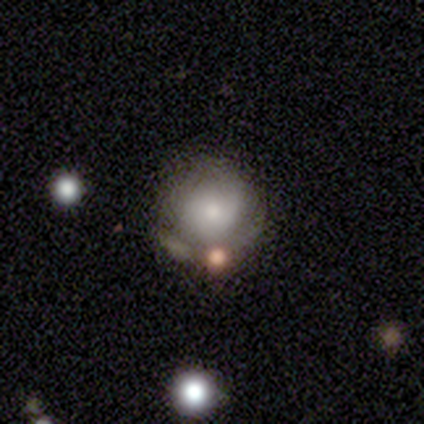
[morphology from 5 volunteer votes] type=featured or disk (60%); edge-on=no (100%); bar=no (100%); spiral arms=no (100%); bulge=small (67%); merging=none (60%).